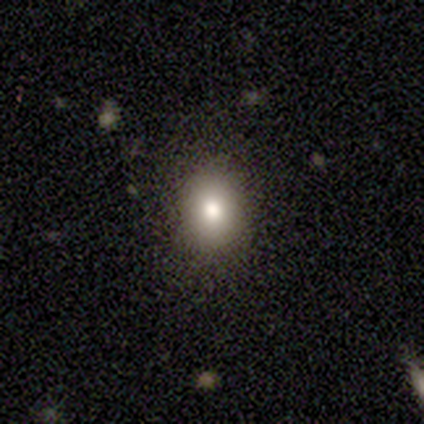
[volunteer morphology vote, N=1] This appears to be a featured or disk galaxy (100%) with no bar (100%), no spiral arms (100%) and a small central bulge (100%). Merging: none (100%).